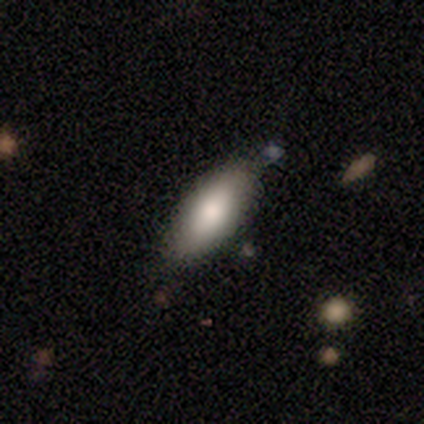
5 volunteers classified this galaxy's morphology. Q: Smooth or featured?
A: smooth (100%)
Q: How rounded?
A: in between (80%); runner-up: cigar-shaped (20%)
Q: Merging?
A: none (80%); runner-up: major disturbance (20%)